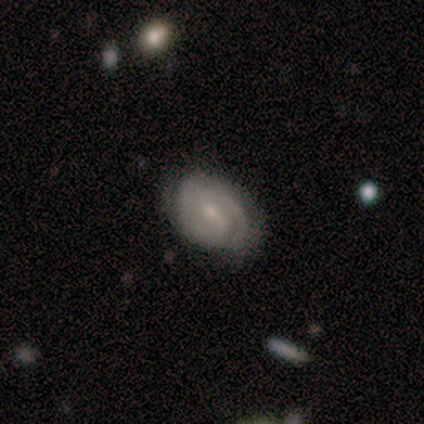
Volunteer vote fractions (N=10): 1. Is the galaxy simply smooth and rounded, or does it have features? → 90% featured or disk, 10% smooth, 0% star or artifact.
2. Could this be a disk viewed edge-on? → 100% no, 0% yes.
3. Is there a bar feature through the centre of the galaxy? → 67% weak, 22% no, 11% strong.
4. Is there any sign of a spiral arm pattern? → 100% yes, 0% no.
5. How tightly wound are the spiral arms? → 67% tight, 33% medium, 0% loose.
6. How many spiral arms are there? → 67% 2, 22% can't tell, 11% 4, 0% 1, 0% 3, 0% more than 4.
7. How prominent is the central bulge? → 67% small, 22% moderate, 11% none, 0% dominant, 0% large.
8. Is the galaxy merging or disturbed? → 80% none, 20% minor disturbance, 0% major disturbance, 0% merger.